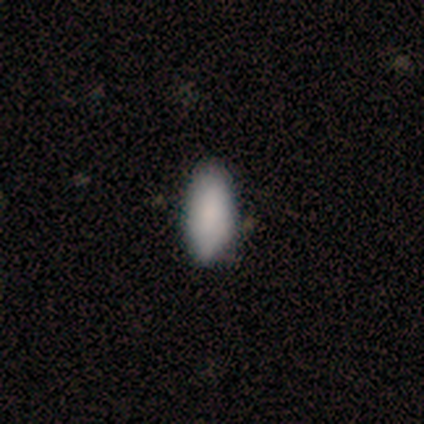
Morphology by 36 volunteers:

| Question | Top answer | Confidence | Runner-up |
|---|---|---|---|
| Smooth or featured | smooth | 94% | featured or disk (6%) |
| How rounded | in between | 91% | cigar-shaped (9%) |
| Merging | none | 61% | minor disturbance (17%) |